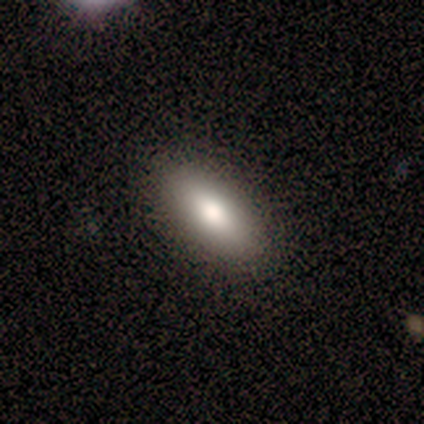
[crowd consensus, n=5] Smooth or featured?
  - smooth: 60% *
  - featured or disk: 40%
  - star or artifact: 0%
How rounded?
  - in between: 100% *
  - round: 0%
  - cigar-shaped: 0%
Merging?
  - none: 80% *
  - major disturbance: 20%
  - minor disturbance: 0%
  - merger: 0%